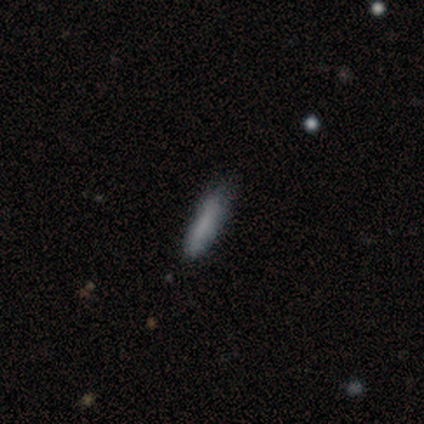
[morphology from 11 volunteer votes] smooth-or-featured: smooth: 73% | featured or disk: 27% | star or artifact: 0%
  how-rounded: cigar-shaped: 88% | in between: 12% | round: 0%
  merging: none: 55% | minor disturbance: 36% | major disturbance: 9% | merger: 0%